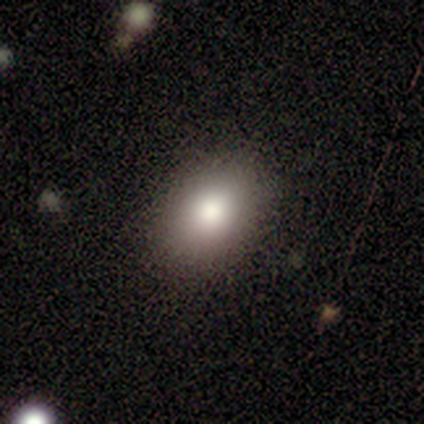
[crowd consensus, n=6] Q: Smooth or featured?
A: smooth (100%)
Q: How rounded?
A: in between (83%); runner-up: round (17%)
Q: Merging?
A: none (100%)